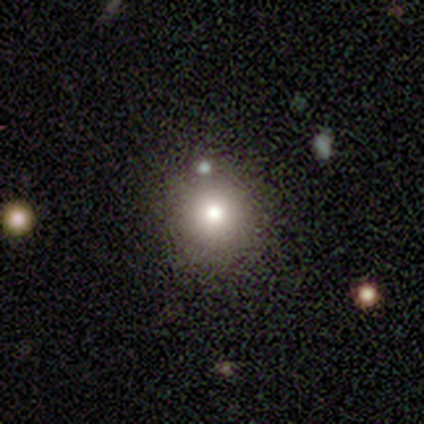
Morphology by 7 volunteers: Smooth or featured?
  - smooth: 86% *
  - star or artifact: 14%
  - featured or disk: 0%
How rounded?
  - round: 100% *
  - in between: 0%
  - cigar-shaped: 0%
Merging?
  - none: 83% *
  - merger: 17%
  - minor disturbance: 0%
  - major disturbance: 0%